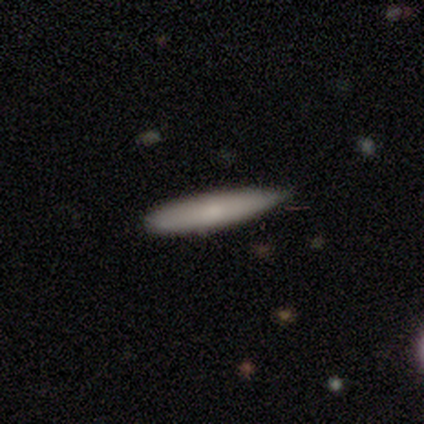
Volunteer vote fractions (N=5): Smooth or featured?
  - smooth: 60% *
  - featured or disk: 20%
  - star or artifact: 20%
How rounded?
  - cigar-shaped: 100% *
  - round: 0%
  - in between: 0%
Merging?
  - minor disturbance: 75% *
  - none: 25%
  - major disturbance: 0%
  - merger: 0%